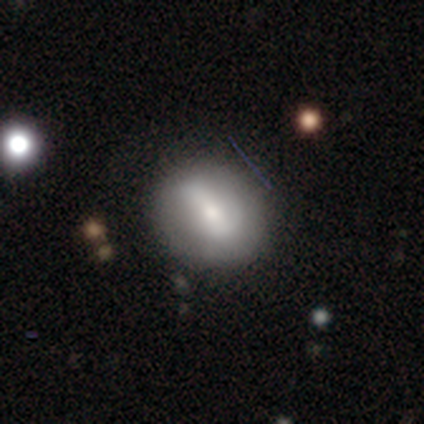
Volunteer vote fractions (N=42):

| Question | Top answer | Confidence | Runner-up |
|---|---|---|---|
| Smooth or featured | smooth | 48% | featured or disk (43%) |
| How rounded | in between | 60% | round (40%) |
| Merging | none | 63% | minor disturbance (26%) |